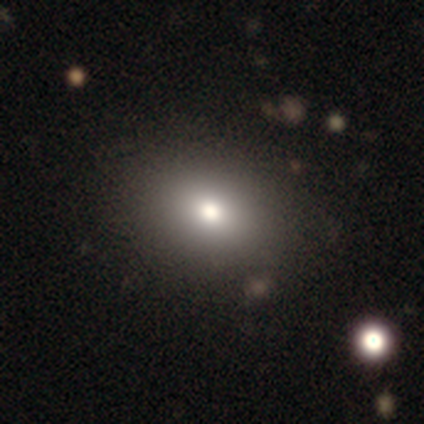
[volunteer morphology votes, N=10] Smooth or featured? smooth (60%)
How rounded? round (50%, tied with in between)
Merging? none (83%)